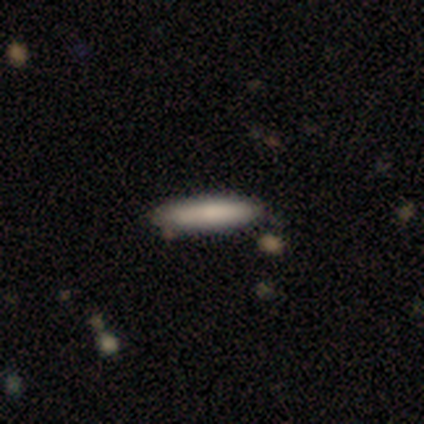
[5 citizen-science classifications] smooth 80%, star or artifact 20%, featured or disk 0%. Down the decision tree: how rounded — cigar-shaped (100%); merging — none (100%).